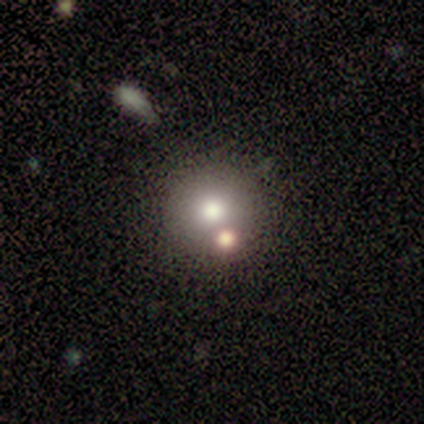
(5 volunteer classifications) This is clearly a smooth galaxy (80%). How rounded: clearly round (100%). Merging: likely none (75%).